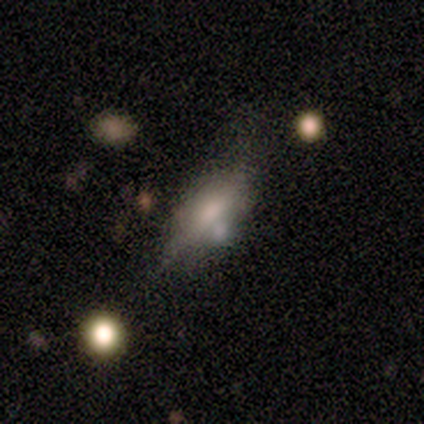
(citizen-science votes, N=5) Morphology: type=smooth (80%); roundness=in between (50%, tied with cigar-shaped); merging=minor disturbance (60%).